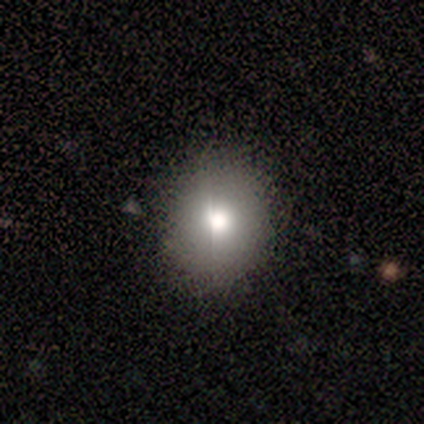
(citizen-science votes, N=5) A smooth galaxy with no disk features (80%) that is round (100%). Merging: none (75%).